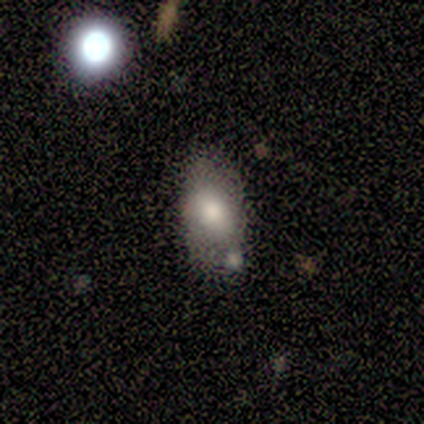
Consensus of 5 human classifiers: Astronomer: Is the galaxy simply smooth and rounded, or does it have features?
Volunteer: smooth — 80%.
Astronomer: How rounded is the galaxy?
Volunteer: in between — 100%.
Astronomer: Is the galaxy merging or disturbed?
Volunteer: none — 80%.